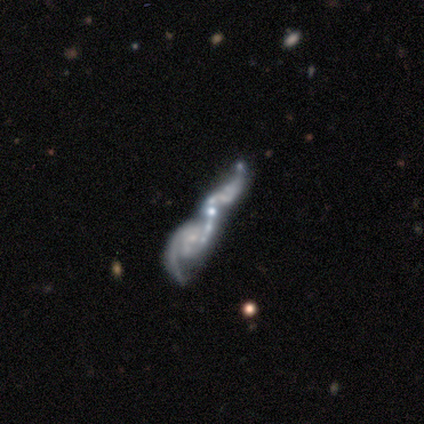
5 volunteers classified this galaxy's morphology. Smooth or featured? 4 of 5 (80%) said featured or disk. Edge-on disk? 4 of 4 (100%) said no. Bar? 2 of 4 (50%) said weak. Spiral arms? 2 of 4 (50%, tied with no) said yes. Spiral winding? 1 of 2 (50%, tied with loose) said medium. Spiral arm count? 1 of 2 (50%, tied with 3) said 2. Bulge size? 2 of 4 (50%) said small. Merging? 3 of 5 (60%) said merger.